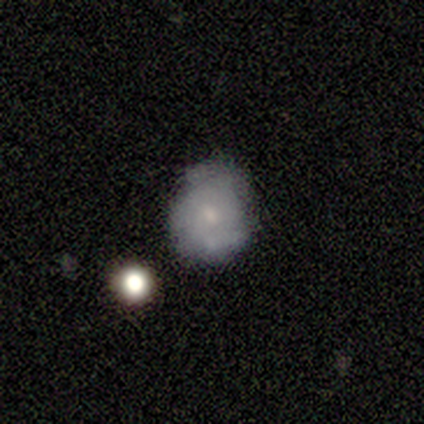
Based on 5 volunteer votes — This appears to be a smooth galaxy with no disk features (40%, tied with featured or disk) that is round (100%). Merging: none (75%).